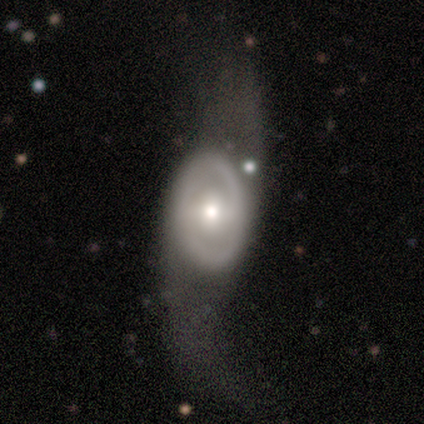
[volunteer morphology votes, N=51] Volunteers were most divided on "bar": weak: 42%, no: 36%, strong: 21%. Remaining: edge-on disk — no (92%); spiral arm count — 2 (89%); smooth or featured — featured or disk (71%); spiral winding — loose (63%); bulge size — moderate (61%); spiral arms — yes (58%); merging — major disturbance (48%).